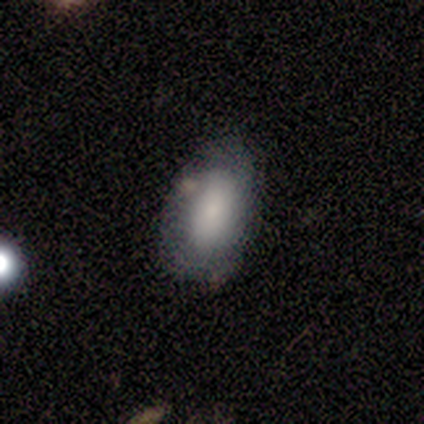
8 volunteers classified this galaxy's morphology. Volunteers were most divided on "smooth or featured" (2-way tie): smooth: 50%, featured or disk: 50%, star or artifact: 0%. More confident: how rounded — in between (100%); merging — none (88%).